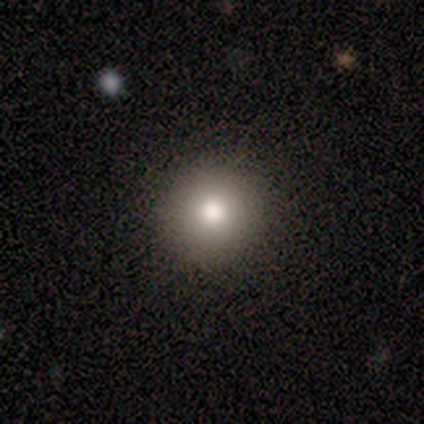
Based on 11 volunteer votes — A smooth galaxy with no disk features (64%) that is round (71%).

Vote fractions:
- Smooth or featured? smooth: 64% / featured or disk: 36% / star or artifact: 0%
- How rounded? round: 71% / in between: 14% / cigar-shaped: 14%
- Merging? none: 82% / minor disturbance: 9% / major disturbance: 9% / merger: 0%